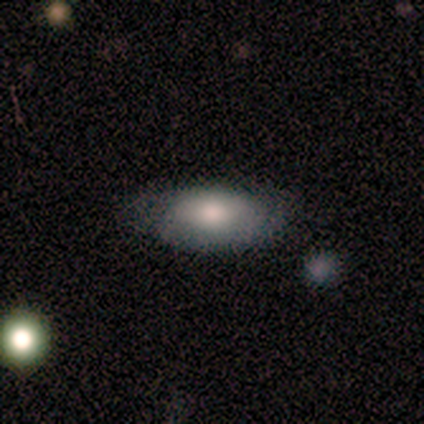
Smooth or featured? smooth (100%)
How rounded? in between (100%)
Merging? none (80%)